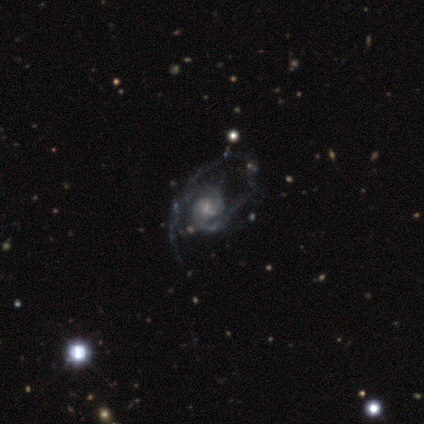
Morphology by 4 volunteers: Smooth or featured: featured or disk — 100%
Edge-on disk: no — 100%
Bar: weak — 50% (tied with no — 50%)
Spiral arms: yes — 100%
Spiral winding: tight — 75% (medium — 25%)
Spiral arm count: 2 — 100%
Bulge size: dominant — 25% (tied with large — 25%; small — 25%; none — 25%)
Merging: minor disturbance — 50% (tied with major disturbance — 50%)